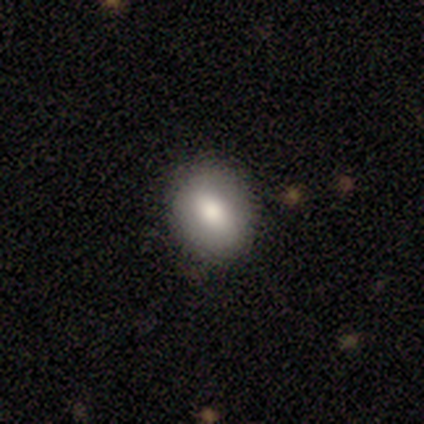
Smooth or featured: smooth — 60% (featured or disk — 40%)
How rounded: round — 67% (in between — 33%)
Merging: none — 80% (minor disturbance — 20%)